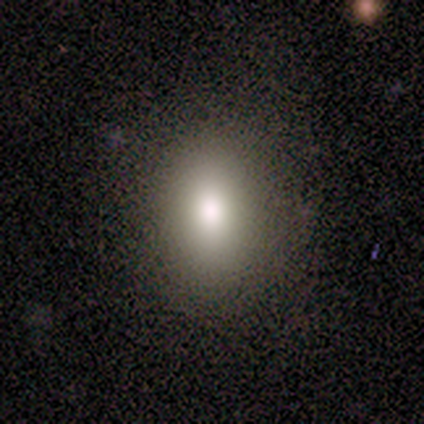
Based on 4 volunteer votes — smooth_or_featured: smooth (p=0.75) [alt: featured or disk p=0.25]
how_rounded: in between (p=0.67) [alt: round p=0.33]
merging: none (p=0.75) [alt: minor disturbance p=0.25]